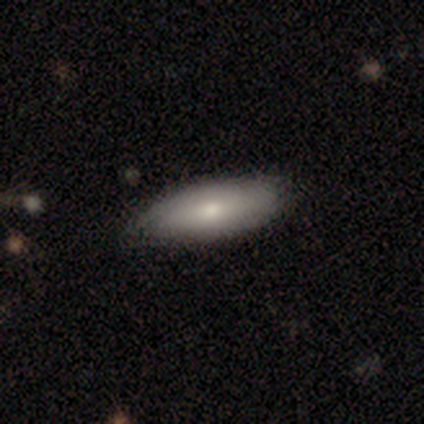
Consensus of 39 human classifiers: A smooth galaxy with no disk features (82%) that is in between round and cigar-shaped (66%).

Vote fractions:
- Smooth or featured? smooth: 82% / featured or disk: 10% / star or artifact: 8%
- How rounded? in between: 66% / cigar-shaped: 34% / round: 0%
- Merging? none: 58% / minor disturbance: 11% / major disturbance: 3% / merger: 3%